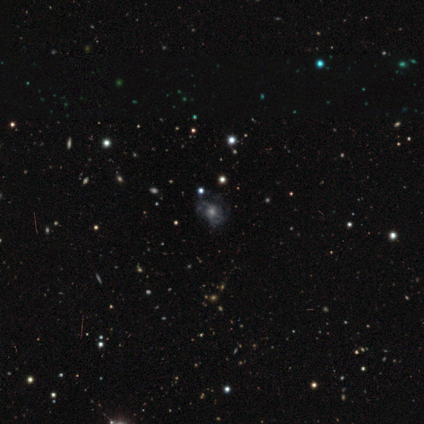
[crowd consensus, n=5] This is likely a star or artifact rather than a galaxy (60%).